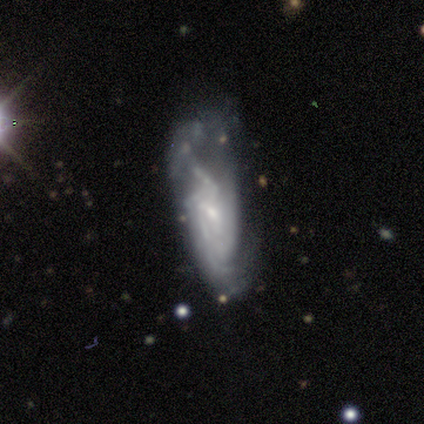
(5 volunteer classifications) A featured or disk galaxy (100%) with no bar (67%), tight (67%) spiral arms (100%) and a small central bulge (67%).

Vote fractions:
- Smooth or featured? featured or disk: 100% / smooth: 0% / star or artifact: 0%
- Edge-on disk? no: 60% / yes: 40%
- Bar? no: 67% / weak: 33% / strong: 0%
- Spiral arms? yes: 100% / no: 0%
- Spiral winding? tight: 67% / medium: 33% / loose: 0%
- Spiral arm count? can't tell: 67% / 3: 33% / 1: 0% / 2: 0% / 4: 0% / more than 4: 0%
- Bulge size? small: 67% / moderate: 33% / dominant: 0% / large: 0% / none: 0%
- Merging? none: 40% (tied) / major disturbance: 40% (tied) / minor disturbance: 20% / merger: 0%